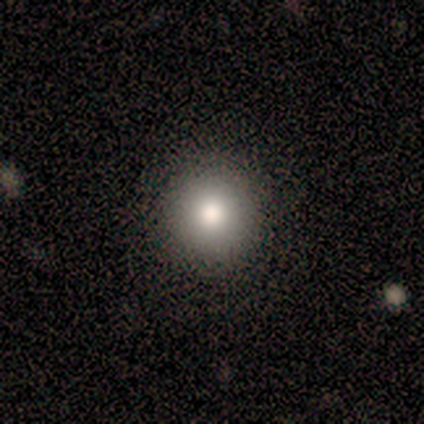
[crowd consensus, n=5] A smooth galaxy with no disk features (100%) that is round (100%). Merging: none (100%).